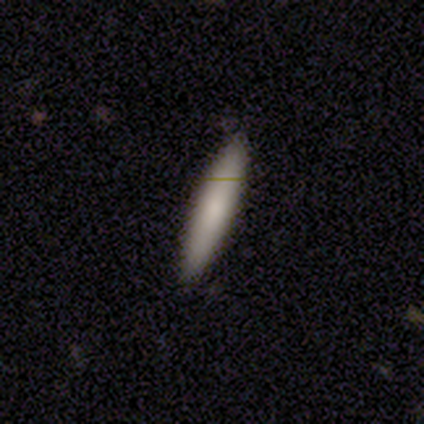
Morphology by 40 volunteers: Overall: smooth (72%). How rounded: cigar-shaped (90%). Merging: none (89%).